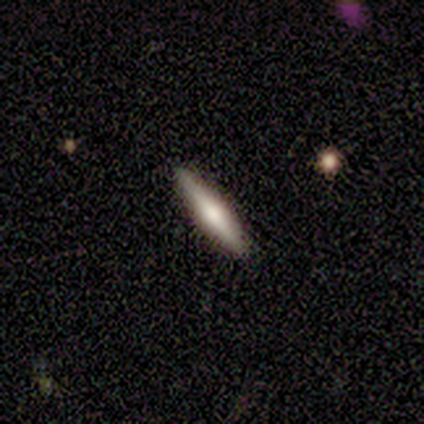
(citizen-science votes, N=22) Volunteers were most divided on "smooth or featured": smooth: 50%, featured or disk: 41%, star or artifact: 9%. More confident: merging — none (95%); how rounded — cigar-shaped (91%).